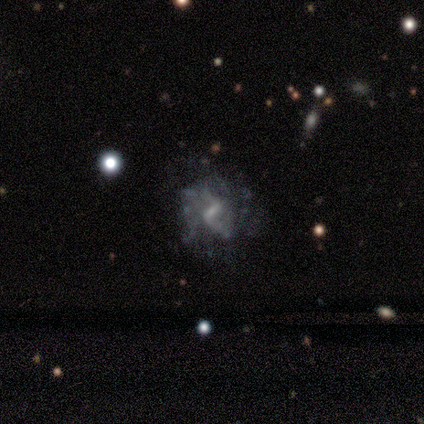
Smooth or featured? 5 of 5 (100%) said featured or disk. Edge-on disk? 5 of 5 (100%) said no. Bar? 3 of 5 (60%) said weak. Spiral arms? 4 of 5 (80%) said yes. Spiral winding? 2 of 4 (50%) said loose. Spiral arm count? 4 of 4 (100%) said 2. Bulge size? 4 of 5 (80%) said none. Merging? 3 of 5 (60%) said none.